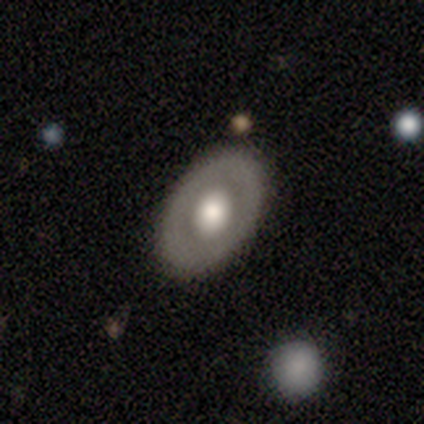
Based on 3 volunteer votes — Volunteers were most divided on "how rounded" (2-way tie): round: 50%, in between: 50%, cigar-shaped: 0%. More confident: merging — none (100%); smooth or featured — smooth (67%).